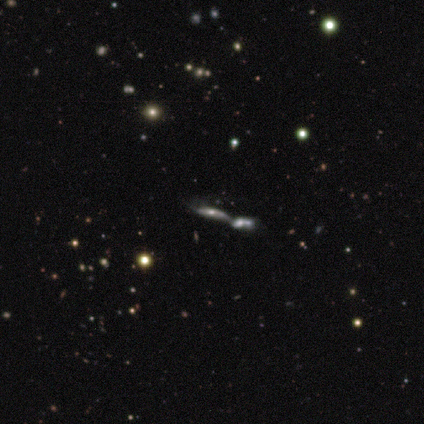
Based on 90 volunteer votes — A featured or disk galaxy (56%) viewed edge-on (62%) with a rounded central bulge (84%).

Vote fractions:
- Smooth or featured? featured or disk: 56% / smooth: 24% / star or artifact: 20%
- Edge-on disk? yes: 62% / no: 38%
- Edge-on bulge? rounded: 84% / none: 10% / boxy: 6%
- Merging? merger: 76% / none: 15% / minor disturbance: 7% / major disturbance: 1%